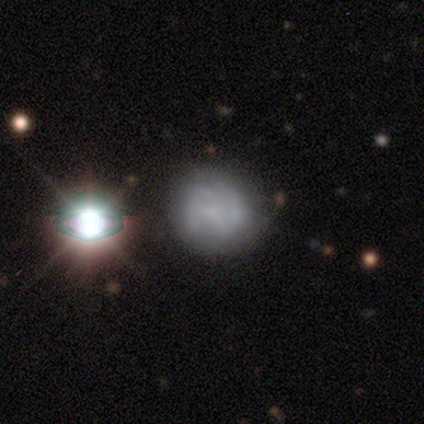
A featured or disk galaxy (52%) with no bar (70%), 2 (57%) medium (64%) spiral arms (70%) and a small central bulge (55%).

Vote fractions:
- Smooth or featured? featured or disk: 52% / smooth: 35% / star or artifact: 12%
- Edge-on disk? no: 95% / yes: 5%
- Bar? no: 70% / weak: 25% / strong: 5%
- Spiral arms? yes: 70% / no: 30%
- Spiral winding? medium: 64% / tight: 21% / loose: 14%
- Spiral arm count? 2: 57% / can't tell: 29% / 3: 7% / 4: 7% / 1: 0% / more than 4: 0%
- Bulge size? small: 55% / none: 40% / moderate: 5% / dominant: 0% / large: 0%
- Merging? none: 71% / major disturbance: 14% / minor disturbance: 11% / merger: 3%